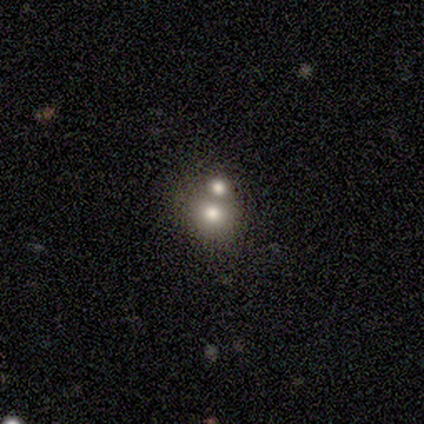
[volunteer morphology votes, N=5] Overall: featured or disk (60%; smooth 20%). Edge-on disk: no (67%; yes 33%). Bar: no (100%). Spiral arms: no (100%). Bulge size: large (50%, tied with moderate). Merging: merger (100%).